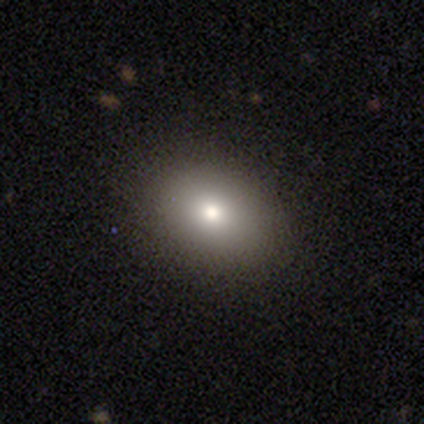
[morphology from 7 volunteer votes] type=smooth (57%); roundness=round (50%, tied with in between); merging=none (83%).